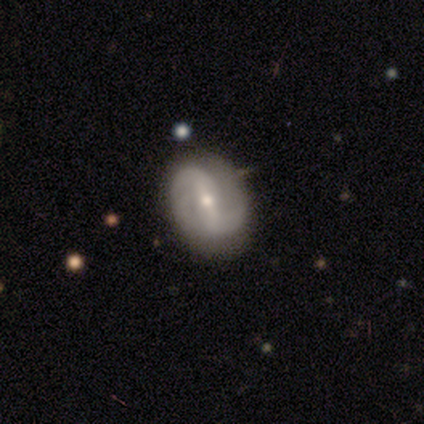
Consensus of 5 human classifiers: A featured or disk galaxy (100%) with a strong bar (80%), 2 (100%) loose (60%) spiral arms (100%) and a small central bulge (80%). Merging: none (80%).